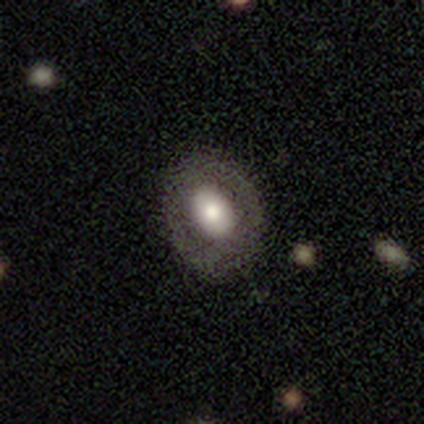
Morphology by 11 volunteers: smooth-or-featured: smooth: 82% | featured or disk: 18% | star or artifact: 0%
  how-rounded: in between: 100% | round: 0% | cigar-shaped: 0%
  merging: none: 64% | major disturbance: 27% | minor disturbance: 9% | merger: 0%